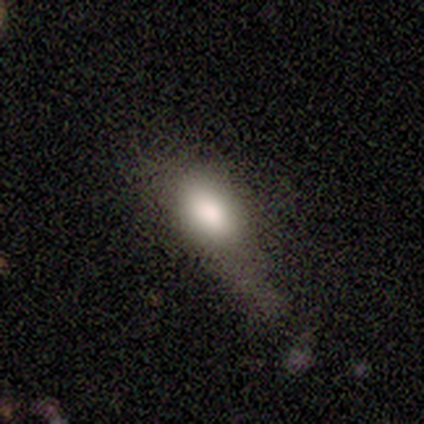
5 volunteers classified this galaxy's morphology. Smooth or featured? 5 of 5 (100%) said smooth. How rounded? 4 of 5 (80%) said in between. Merging? 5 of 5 (100%) said major disturbance.